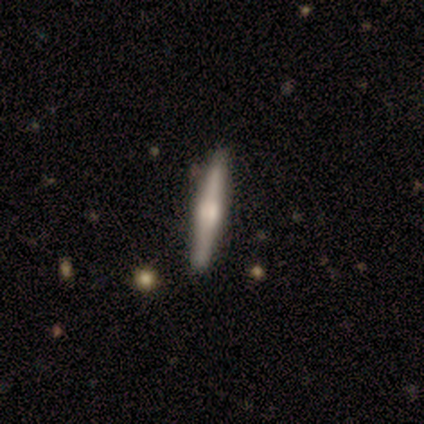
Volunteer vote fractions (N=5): A featured or disk galaxy (60%) viewed edge-on (100%) with a rounded central bulge (100%). Merging: none (100%).